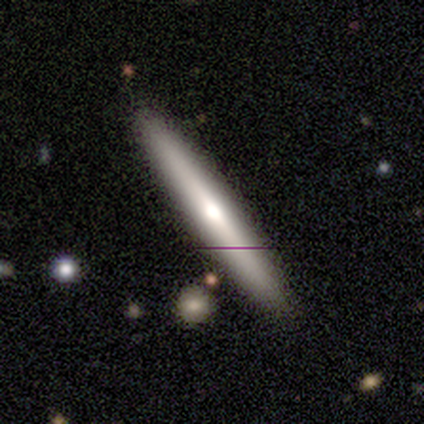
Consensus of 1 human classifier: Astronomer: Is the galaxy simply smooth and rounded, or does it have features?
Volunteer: featured or disk — 100%.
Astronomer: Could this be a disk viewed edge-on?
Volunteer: yes — 100%.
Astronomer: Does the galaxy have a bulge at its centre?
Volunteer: rounded — 100%.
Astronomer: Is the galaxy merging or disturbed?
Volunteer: none — 100%.